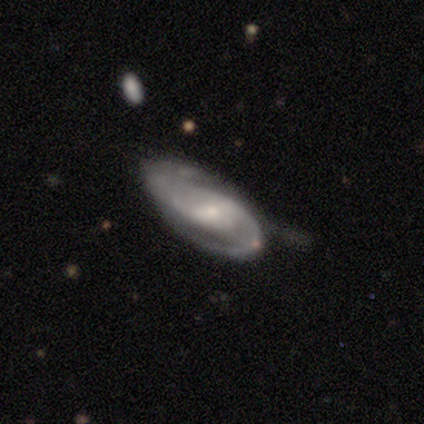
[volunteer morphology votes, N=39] smooth_or_featured: featured or disk (p=0.87) [alt: star or artifact p=0.08]
disk_edge_on: no (p=0.94) [alt: yes p=0.06]
bar: weak (p=0.44) [tied with: no p=0.44]
has_spiral_arms: yes (p=1.00)
spiral_winding: medium (p=0.66) [alt: tight p=0.25]
spiral_arm_count: 2 (p=0.97) [alt: 1 p=0.03]
bulge_size: small (p=0.72) [alt: moderate p=0.19]
merging: none (p=0.56) [alt: minor disturbance p=0.31]